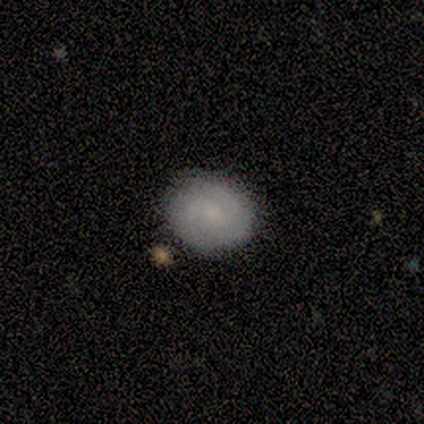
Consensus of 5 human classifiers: Morphology: type=featured or disk (60%); edge-on=no (100%); bar=no (67%); spiral arms=yes (67%); winding=medium (50%, tied with loose); arm count=2 (50%, tied with 3); bulge=moderate (67%); merging=none (80%).